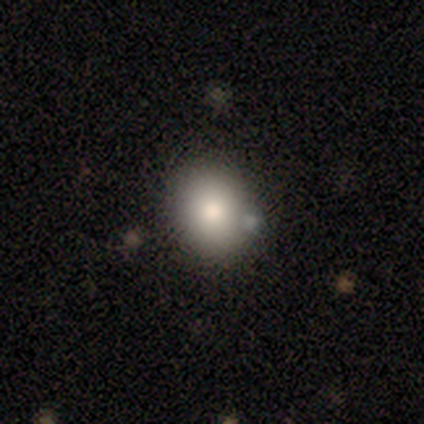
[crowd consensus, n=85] A smooth galaxy with no disk features (80%) that is round (76%). Merging: none (83%).